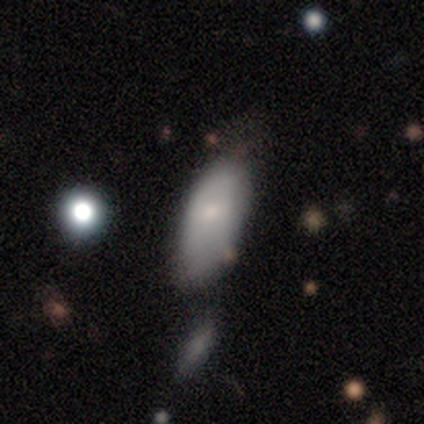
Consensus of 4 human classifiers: Smooth or featured: smooth — 50% (tied with featured or disk — 50%)
How rounded: in between — 100%
Merging: none — 75% (major disturbance — 25%)